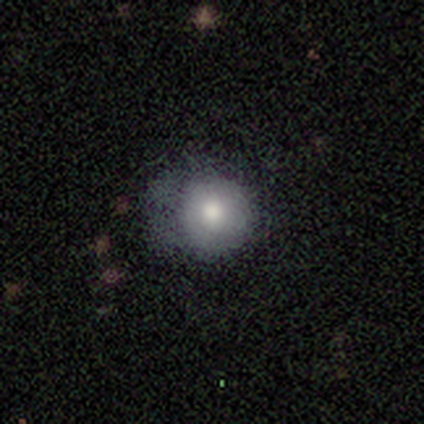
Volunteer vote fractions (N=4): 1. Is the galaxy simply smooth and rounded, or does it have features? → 75% smooth, 25% star or artifact, 0% featured or disk.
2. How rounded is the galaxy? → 100% round, 0% in between, 0% cigar-shaped.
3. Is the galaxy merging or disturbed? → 67% none, 33% major disturbance, 0% minor disturbance, 0% merger.